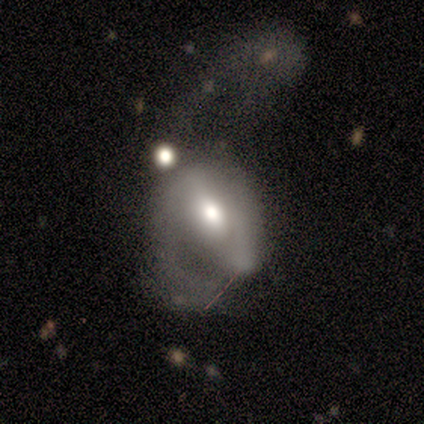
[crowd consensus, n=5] smooth_or_featured: smooth (p=0.40) [tied with: featured or disk p=0.40]
how_rounded: in between (p=1.00)
merging: major disturbance (p=0.50) [alt: none p=0.25]